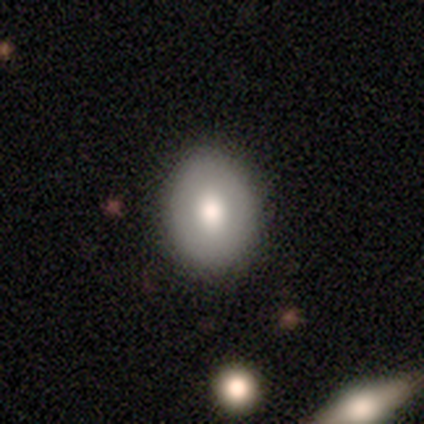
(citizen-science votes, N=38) Smooth or featured: smooth — 84% (featured or disk — 8%)
How rounded: in between — 53% (round — 47%)
Merging: none — 89% (minor disturbance — 9%)